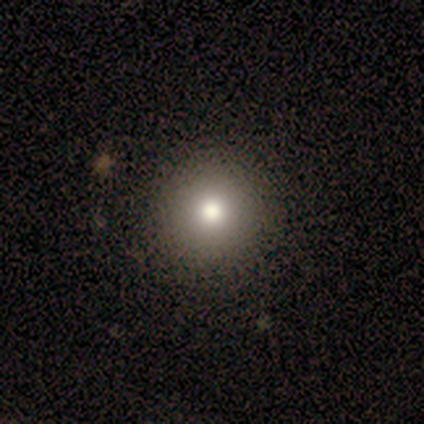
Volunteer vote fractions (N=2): Smooth or featured?
  - smooth: 100% *
  - featured or disk: 0%
  - star or artifact: 0%
How rounded?
  - round: 100% *
  - in between: 0%
  - cigar-shaped: 0%
Merging?
  - none: 100% *
  - minor disturbance: 0%
  - major disturbance: 0%
  - merger: 0%